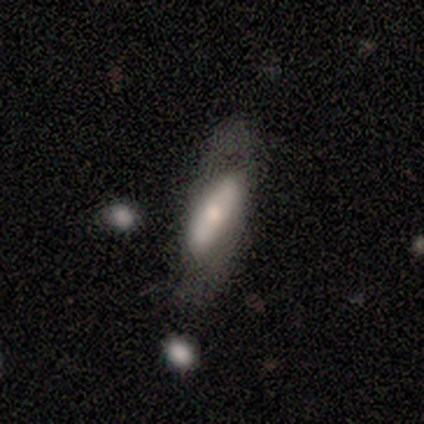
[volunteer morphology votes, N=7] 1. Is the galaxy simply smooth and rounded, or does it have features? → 57% featured or disk, 43% smooth, 0% star or artifact.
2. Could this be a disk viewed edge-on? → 75% no, 25% yes.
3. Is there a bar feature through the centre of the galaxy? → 33% strong (tied), 33% weak (tied), 33% no (tied).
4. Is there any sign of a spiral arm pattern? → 67% no, 33% yes.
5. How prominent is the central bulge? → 67% moderate, 33% small, 0% dominant, 0% large, 0% none.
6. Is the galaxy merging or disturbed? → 57% none, 29% minor disturbance, 14% major disturbance, 0% merger.